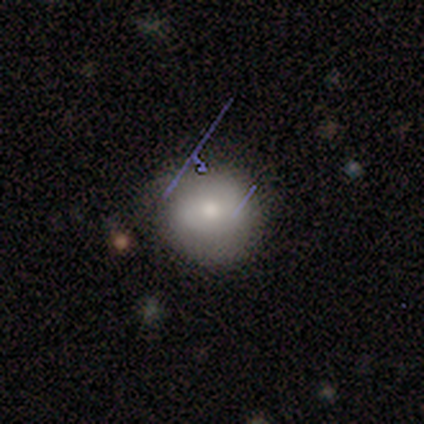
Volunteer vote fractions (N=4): Q: Smooth or featured?
A: smooth (100%)
Q: How rounded?
A: round (100%)
Q: Merging?
A: none (75%); runner-up: minor disturbance (25%)